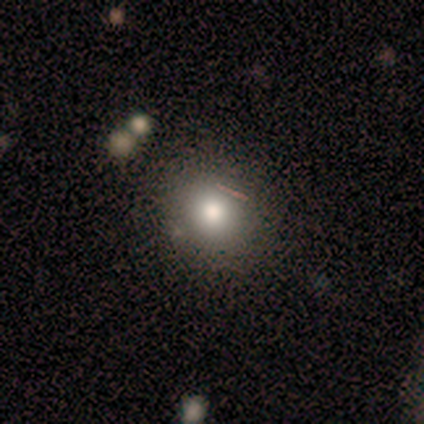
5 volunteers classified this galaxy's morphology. A smooth galaxy with no disk features (100%) that is round (80%).

Vote fractions:
- Smooth or featured? smooth: 100% / featured or disk: 0% / star or artifact: 0%
- How rounded? round: 80% / in between: 20% / cigar-shaped: 0%
- Merging? none: 80% / merger: 20% / minor disturbance: 0% / major disturbance: 0%